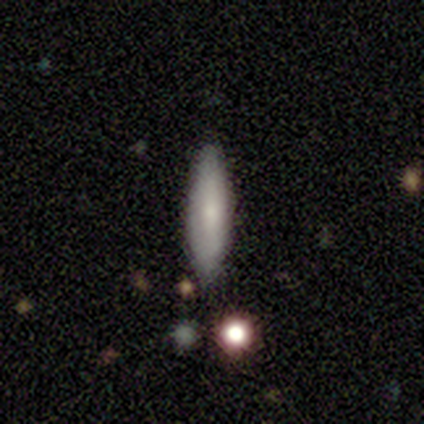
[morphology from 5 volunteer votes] A featured or disk galaxy (80%) with no bar (67%), no spiral arms (100%) and a small central bulge (67%).

Vote fractions:
- Smooth or featured? featured or disk: 80% / smooth: 20% / star or artifact: 0%
- Edge-on disk? no: 75% / yes: 25%
- Bar? no: 67% / weak: 33% / strong: 0%
- Spiral arms? no: 100% / yes: 0%
- Bulge size? small: 67% / moderate: 33% / dominant: 0% / large: 0% / none: 0%
- Merging? minor disturbance: 60% / none: 40% / major disturbance: 0% / merger: 0%